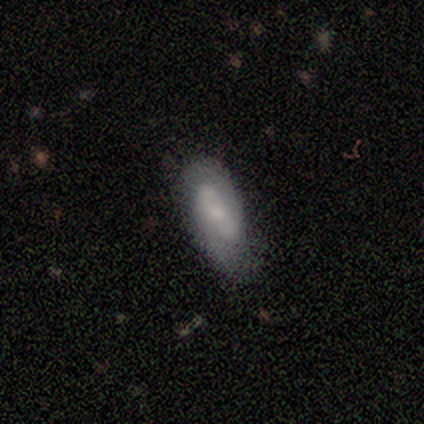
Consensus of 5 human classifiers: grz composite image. It shows a featured or disk galaxy (80%) with a weak bar (50%, tied with no), 2 (100%) tight (33%, tied with medium and loose) spiral arms (75%) and a moderate central bulge (50%, tied with small). Merging: none (100%).